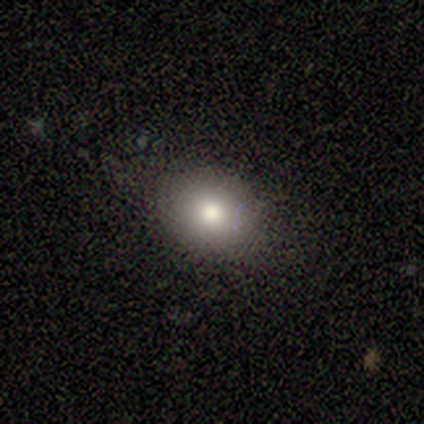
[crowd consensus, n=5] smooth 100%, featured or disk 0%, star or artifact 0%. Down the decision tree: how rounded — round (80%); merging — none (100%).